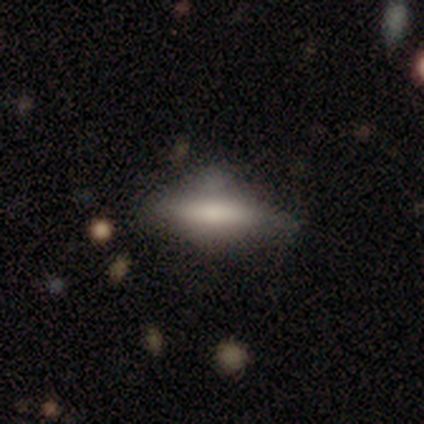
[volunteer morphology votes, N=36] This appears to be a smooth galaxy with no disk features (58%) that is cigar-shaped (57%). Merging: none (64%).